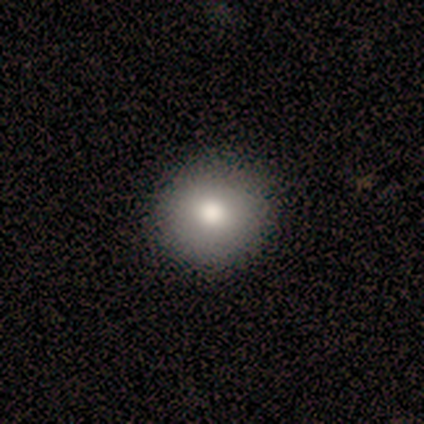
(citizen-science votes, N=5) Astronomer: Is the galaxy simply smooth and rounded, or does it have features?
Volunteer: smooth — 80%.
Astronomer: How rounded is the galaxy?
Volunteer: round — 100%.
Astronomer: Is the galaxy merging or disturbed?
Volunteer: none — 100%.